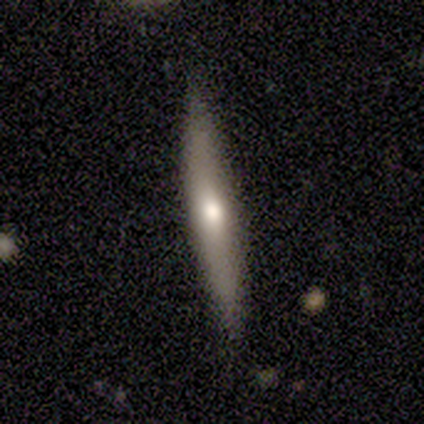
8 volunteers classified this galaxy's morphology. This is likely a featured or disk galaxy (62%). It is clearly viewed edge-on (80%). Edge-on bulge: likely rounded (75%). Merging: clearly none (100%).